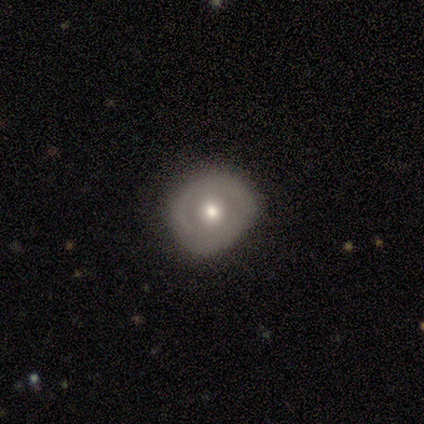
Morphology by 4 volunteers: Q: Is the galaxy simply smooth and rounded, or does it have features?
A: featured or disk — 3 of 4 (75%).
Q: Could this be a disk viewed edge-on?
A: no — 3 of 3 (100%).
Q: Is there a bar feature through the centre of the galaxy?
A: no — 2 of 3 (67%).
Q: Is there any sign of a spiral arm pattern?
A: no — 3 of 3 (100%).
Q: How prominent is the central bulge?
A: moderate — 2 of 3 (67%).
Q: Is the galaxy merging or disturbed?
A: none — 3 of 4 (75%).